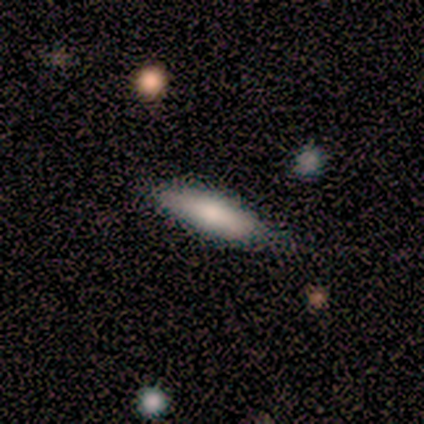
Smooth or featured? smooth (100%)
How rounded? cigar-shaped (60%)
Merging? none (100%)